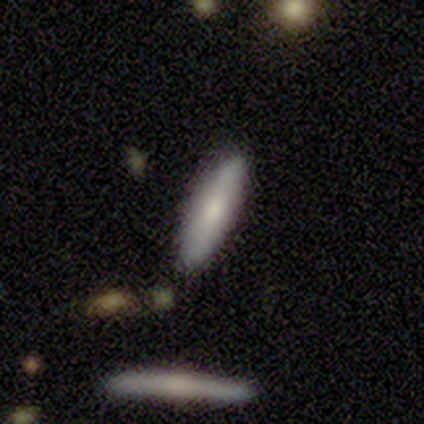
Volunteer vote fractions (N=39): Q: Smooth or featured?
A: smooth (69%); runner-up: featured or disk (31%)
Q: How rounded?
A: cigar-shaped (63%); runner-up: in between (37%)
Q: Merging?
A: none (51%); runner-up: minor disturbance (8%)